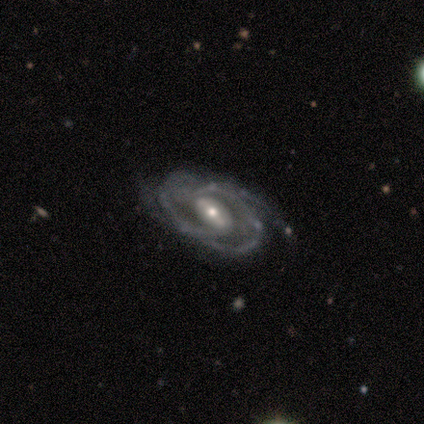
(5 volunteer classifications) Smooth or featured: featured or disk — 100%
Edge-on disk: no — 100%
Bar: weak — 80% (strong — 20%)
Spiral arms: yes — 100%
Spiral winding: medium — 80% (tight — 20%)
Spiral arm count: 2 — 40% (tied with 3 — 40%)
Bulge size: small — 60% (moderate — 40%)
Merging: none — 40% (tied with major disturbance — 40%)